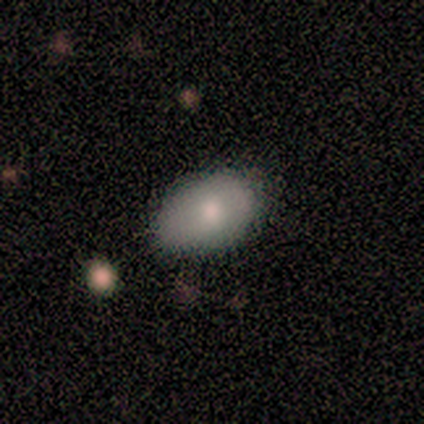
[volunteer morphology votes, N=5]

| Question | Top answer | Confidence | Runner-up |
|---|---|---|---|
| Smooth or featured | smooth | 80% | featured or disk (20%) |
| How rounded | in between | 100% | — |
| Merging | none | 60% | minor disturbance (20%) |